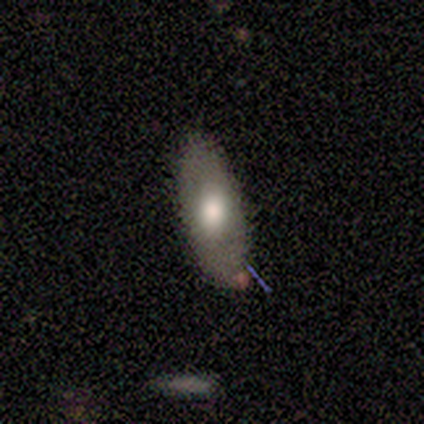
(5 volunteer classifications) smooth-or-featured: smooth: 100% | featured or disk: 0% | star or artifact: 0%
  how-rounded: in between: 80% | cigar-shaped: 20% | round: 0%
  merging: minor disturbance: 60% | none: 40% | major disturbance: 0% | merger: 0%